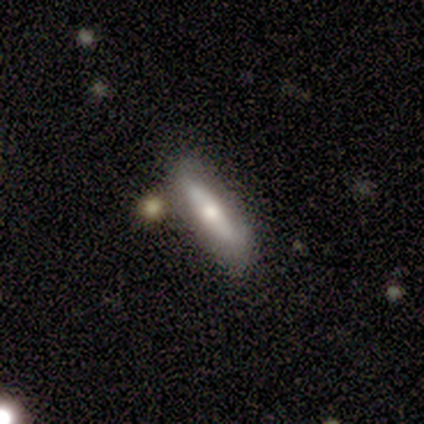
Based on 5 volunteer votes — smooth_or_featured: smooth (p=0.80) [alt: featured or disk p=0.20]
how_rounded: cigar-shaped (p=0.75) [alt: in between p=0.25]
merging: none (p=0.60) [alt: minor disturbance p=0.20]